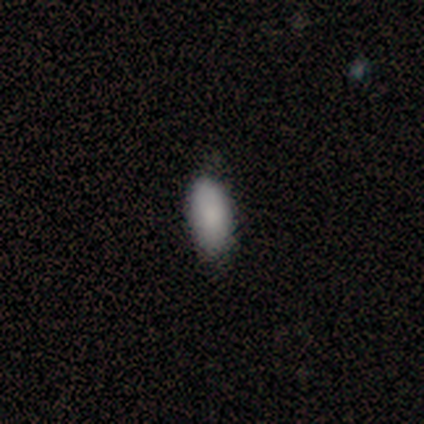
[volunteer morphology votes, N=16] Smooth or featured: smooth — 88% (featured or disk — 6%)
How rounded: in between — 79% (cigar-shaped — 14%)
Merging: none — 87% (minor disturbance — 13%)